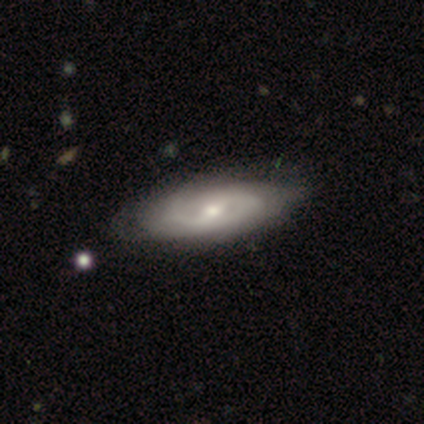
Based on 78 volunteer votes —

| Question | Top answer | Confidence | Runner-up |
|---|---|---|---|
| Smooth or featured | featured or disk | 83% | smooth (14%) |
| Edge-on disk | no | 95% | yes (5%) |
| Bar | weak | 58% | no (26%) |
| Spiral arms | yes | 81% | no (19%) |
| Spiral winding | medium | 56% | tight (30%) |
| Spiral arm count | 2 | 70% | can't tell (20%) |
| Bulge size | moderate | 58% | small (39%) |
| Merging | none | 41% | minor disturbance (13%) |